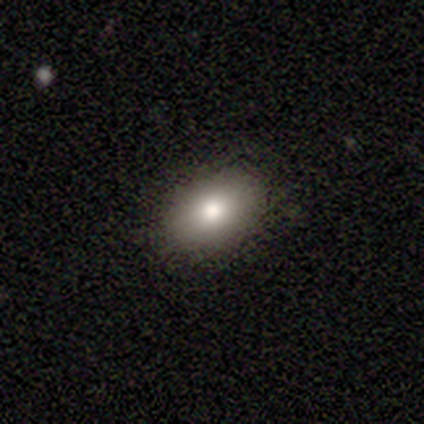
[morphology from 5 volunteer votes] smooth_or_featured: smooth (p=1.00)
how_rounded: in between (p=1.00)
merging: none (p=0.80) [alt: minor disturbance p=0.20]